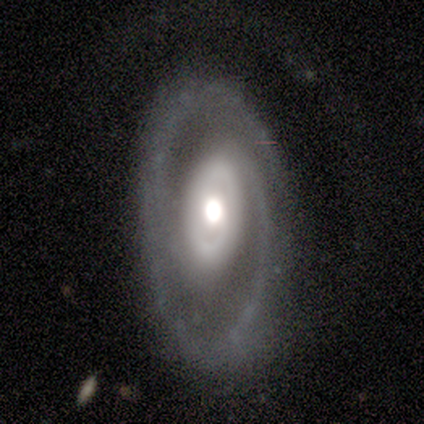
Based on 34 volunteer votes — A featured or disk galaxy (79%) with no bar (62%), 2 (68%) medium (59%) spiral arms (92%) and a moderate central bulge (58%). Merging: none (73%).